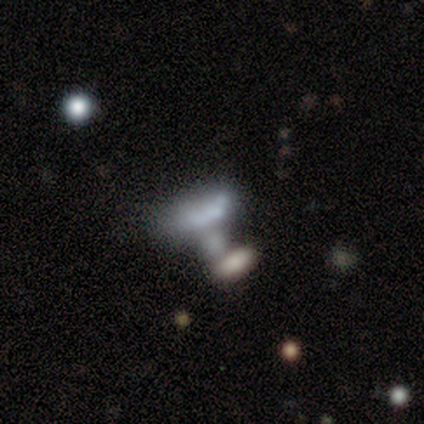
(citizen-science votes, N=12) This is likely a smooth galaxy (67%). How rounded: likely in between (62%). Merging: possibly merger (45%).